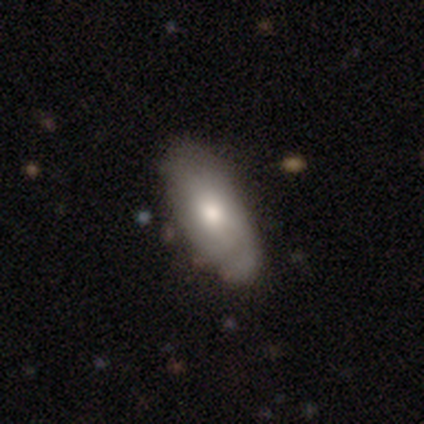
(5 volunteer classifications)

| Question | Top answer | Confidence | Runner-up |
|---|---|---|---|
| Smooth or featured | featured or disk | 60% | smooth (40%) |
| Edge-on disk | no | 67% | yes (33%) |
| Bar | no | 100% | — |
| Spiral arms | yes | 100% | — |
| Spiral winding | tight | 50% | tied: medium (50%) |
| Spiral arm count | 2 | 50% | tied: 4 (50%) |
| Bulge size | moderate | 100% | — |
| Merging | minor disturbance | 80% | none (20%) |